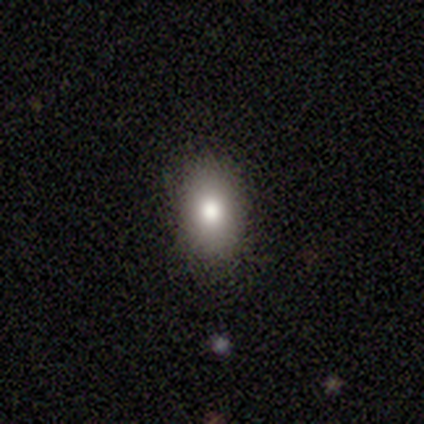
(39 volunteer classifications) Q: Smooth or featured?
A: smooth (72%); runner-up: star or artifact (18%)
Q: How rounded?
A: in between (86%); runner-up: round (14%)
Q: Merging?
A: none (94%); runner-up: minor disturbance (6%)